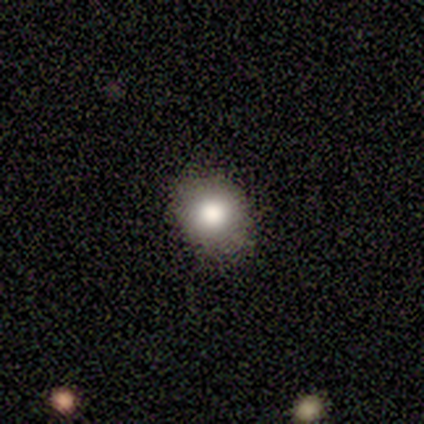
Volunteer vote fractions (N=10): Volunteers were most divided on "how rounded": round: 57%, in between: 43%, cigar-shaped: 0%. More confident: merging — none (100%); smooth or featured — smooth (70%).